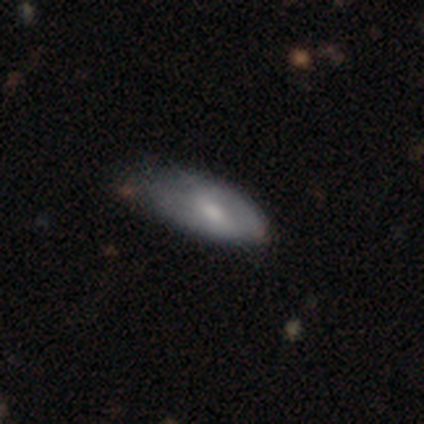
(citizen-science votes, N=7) Volunteers were most divided on "smooth or featured": smooth: 57%, featured or disk: 43%, star or artifact: 0%. More confident: how rounded — in between (75%); merging — none (71%).